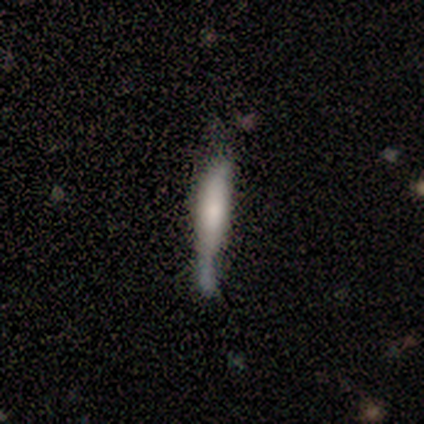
Smooth or featured?
  - smooth: 47% *
  - featured or disk: 40%
  - star or artifact: 13%
How rounded?
  - cigar-shaped: 100% *
  - round: 0%
  - in between: 0%
Merging?
  - none: 38% *
  - minor disturbance: 23%
  - merger: 23%
  - major disturbance: 15%